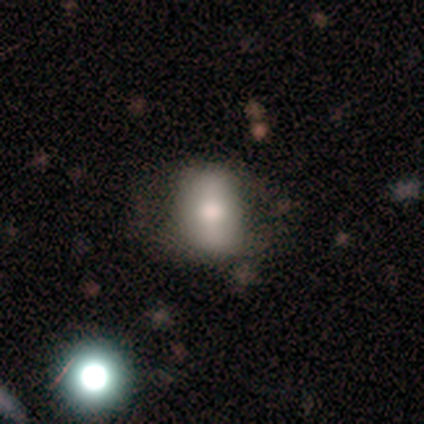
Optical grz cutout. It shows a smooth galaxy with no disk features (64%) that is in between round and cigar-shaped (84%). Merging: none (53%).